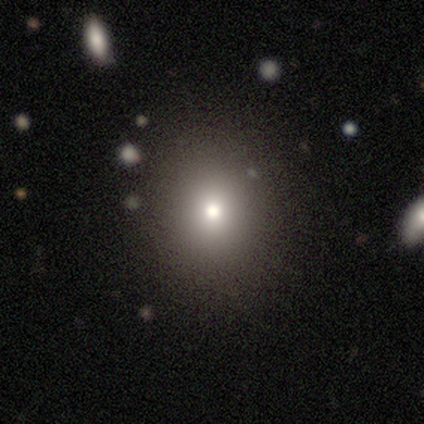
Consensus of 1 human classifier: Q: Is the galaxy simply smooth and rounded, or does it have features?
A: smooth — 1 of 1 (100%).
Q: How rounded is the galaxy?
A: in between — 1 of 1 (100%).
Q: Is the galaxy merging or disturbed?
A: none — 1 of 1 (100%).